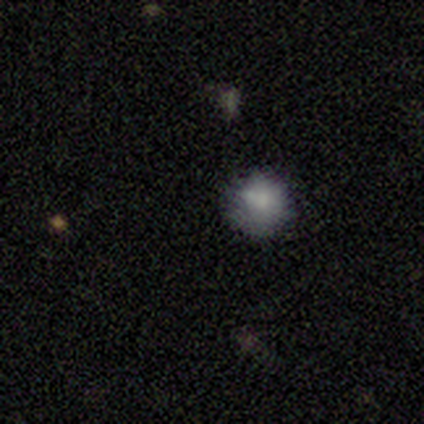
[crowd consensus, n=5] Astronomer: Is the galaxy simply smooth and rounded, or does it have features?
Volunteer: smooth — 80%.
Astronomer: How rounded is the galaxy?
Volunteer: round — 100%.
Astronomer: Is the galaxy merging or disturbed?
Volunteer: none — 60% (runner-up: minor disturbance, 40%).